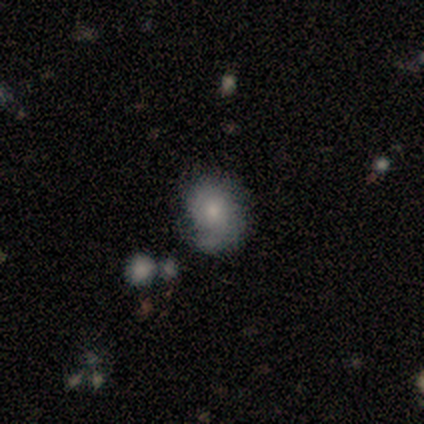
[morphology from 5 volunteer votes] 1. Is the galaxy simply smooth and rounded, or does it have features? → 60% smooth, 40% featured or disk, 0% star or artifact.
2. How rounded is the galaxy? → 67% in between, 33% round, 0% cigar-shaped.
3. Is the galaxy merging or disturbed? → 60% minor disturbance, 40% none, 0% major disturbance, 0% merger.